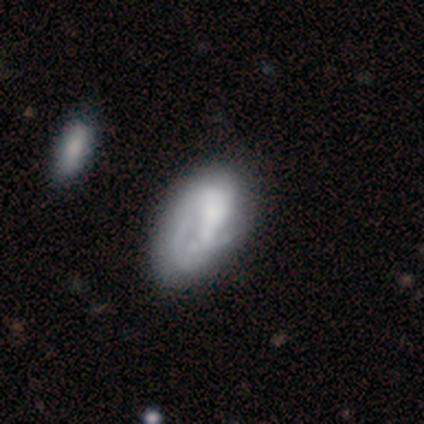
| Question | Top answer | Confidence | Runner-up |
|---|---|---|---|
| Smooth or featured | smooth | 60% | featured or disk (40%) |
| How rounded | in between | 100% | — |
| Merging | minor disturbance | 60% | major disturbance (40%) |